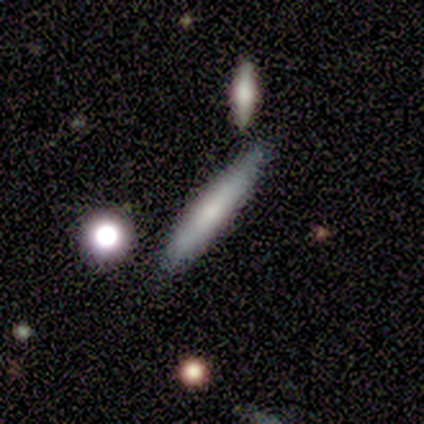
Smooth or featured?
  - smooth: 80% *
  - featured or disk: 20%
  - star or artifact: 0%
How rounded?
  - cigar-shaped: 75% *
  - in between: 25%
  - round: 0%
Merging?
  - minor disturbance: 60% *
  - none: 20%
  - merger: 20%
  - major disturbance: 0%